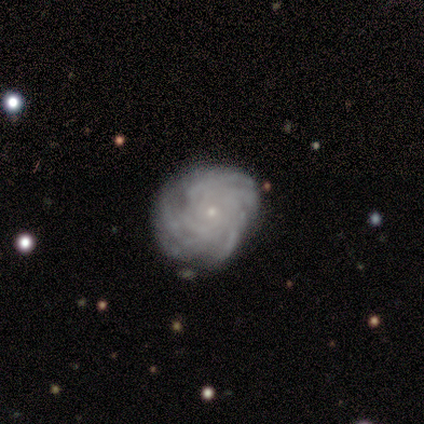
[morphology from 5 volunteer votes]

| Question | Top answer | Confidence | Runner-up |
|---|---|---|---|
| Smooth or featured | featured or disk | 80% | smooth (20%) |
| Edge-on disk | no | 75% | yes (25%) |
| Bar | no | 100% | — |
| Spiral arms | yes | 67% | no (33%) |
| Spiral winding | tight | 50% | tied: medium (50%) |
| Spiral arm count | can't tell | 100% | — |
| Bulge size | small | 100% | — |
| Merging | none | 60% | minor disturbance (40%) |